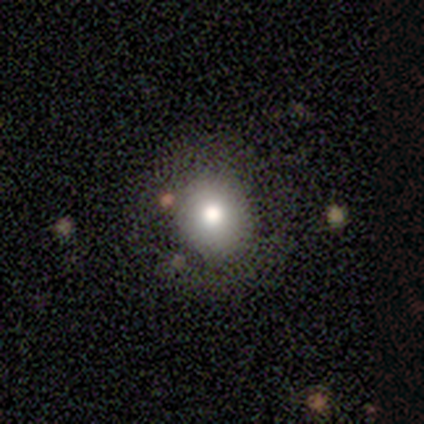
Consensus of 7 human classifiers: Smooth or featured: smooth — 71% (star or artifact — 29%)
How rounded: round — 100%
Merging: none — 80% (minor disturbance — 20%)